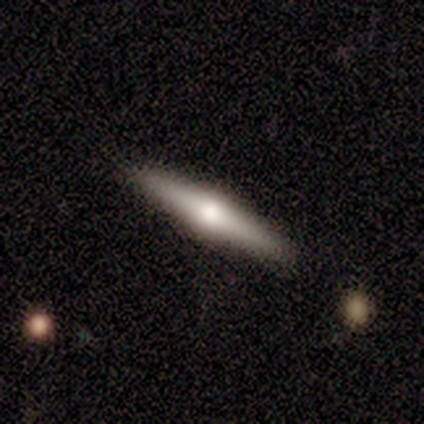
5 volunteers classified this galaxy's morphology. type=featured or disk (80%); edge-on=yes (75%); edge-on bulge=rounded (100%); merging=none (100%).